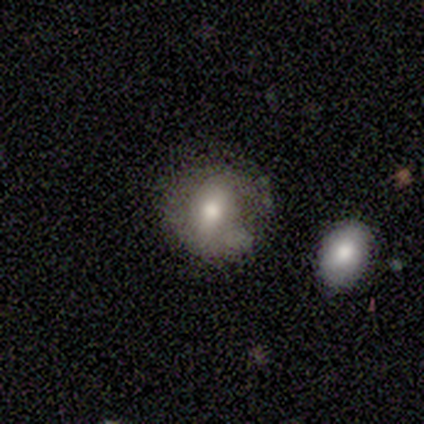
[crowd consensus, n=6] Morphology: type=smooth (83%); roundness=round (60%); merging=none (83%).